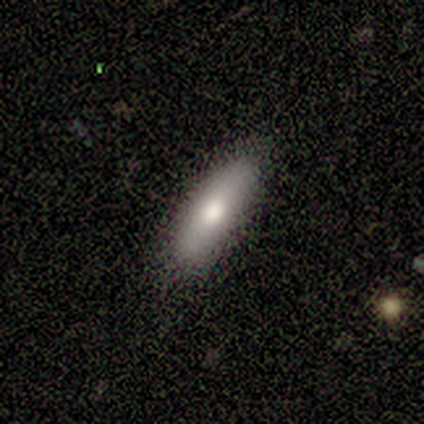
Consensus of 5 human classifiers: A smooth galaxy with no disk features (60%) that is in between round and cigar-shaped (67%).

Vote fractions:
- Smooth or featured? smooth: 60% / featured or disk: 40% / star or artifact: 0%
- How rounded? in between: 67% / cigar-shaped: 33% / round: 0%
- Merging? none: 80% / minor disturbance: 20% / major disturbance: 0% / merger: 0%